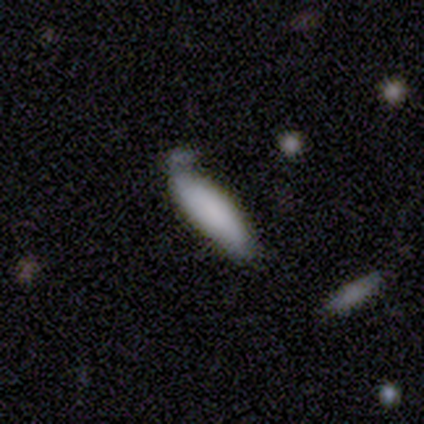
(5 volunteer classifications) smooth_or_featured: smooth (p=1.00)
how_rounded: in between (p=0.80) [alt: cigar-shaped p=0.20]
merging: minor disturbance (p=0.40) [tied with: major disturbance p=0.40]